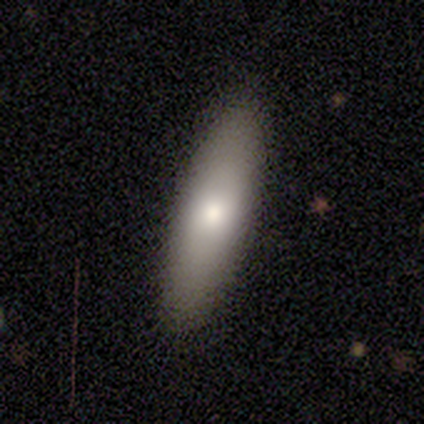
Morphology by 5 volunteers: smooth 80%, featured or disk 20%, star or artifact 0%. Down the decision tree: how rounded — in between (75%); merging — none (80%).